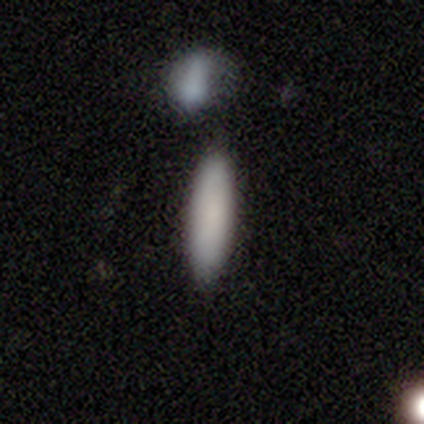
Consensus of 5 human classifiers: Overall: smooth (100%). How rounded: cigar-shaped (60%; in between 40%). Merging: none (80%).